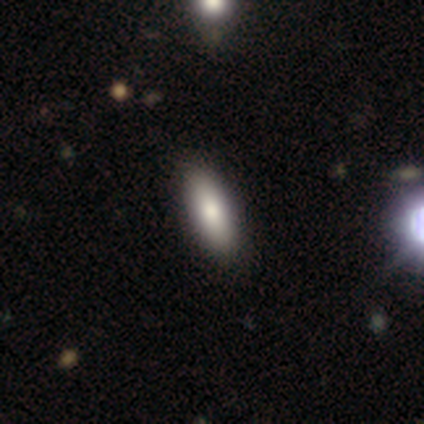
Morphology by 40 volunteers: This appears to be a smooth galaxy with no disk features (75%) that is in between round and cigar-shaped (73%). Merging: none (84%).